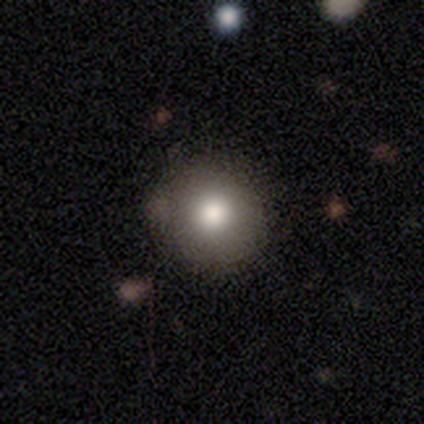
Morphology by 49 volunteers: Smooth or featured?
  - smooth: 76% *
  - featured or disk: 14%
  - star or artifact: 10%
How rounded?
  - round: 97% *
  - in between: 3%
  - cigar-shaped: 0%
Merging?
  - none: 93% *
  - major disturbance: 5%
  - minor disturbance: 2%
  - merger: 0%